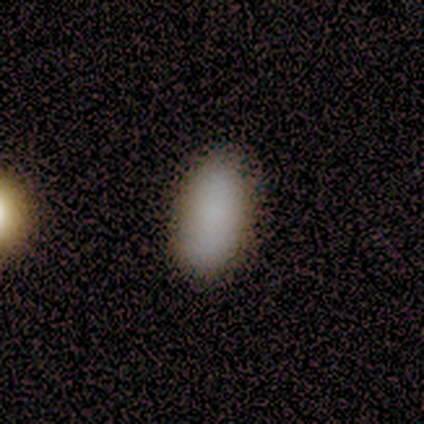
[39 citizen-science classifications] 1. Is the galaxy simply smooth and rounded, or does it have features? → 92% smooth, 5% featured or disk, 3% star or artifact.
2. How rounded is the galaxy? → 97% in between, 3% cigar-shaped, 0% round.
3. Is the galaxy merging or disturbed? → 87% none, 11% minor disturbance, 3% major disturbance, 0% merger.